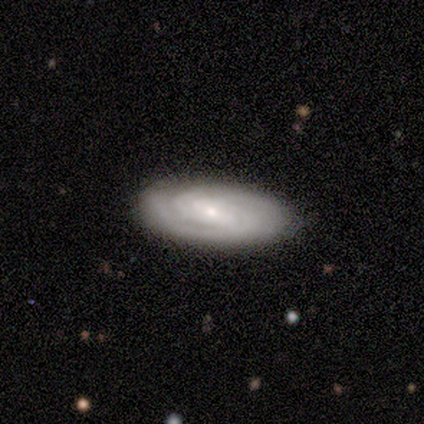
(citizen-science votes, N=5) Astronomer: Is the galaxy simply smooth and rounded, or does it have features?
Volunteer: featured or disk — 80%.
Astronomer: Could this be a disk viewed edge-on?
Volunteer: no — 100%.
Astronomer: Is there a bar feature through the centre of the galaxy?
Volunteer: strong — 50%, tied with no at 50%.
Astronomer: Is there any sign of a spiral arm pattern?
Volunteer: yes — 100%.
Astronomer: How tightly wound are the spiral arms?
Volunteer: tight — 75%.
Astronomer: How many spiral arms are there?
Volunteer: can't tell — 50%.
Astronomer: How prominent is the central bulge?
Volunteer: moderate — 50%, tied with small at 50%.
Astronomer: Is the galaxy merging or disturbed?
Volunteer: none — 100%.